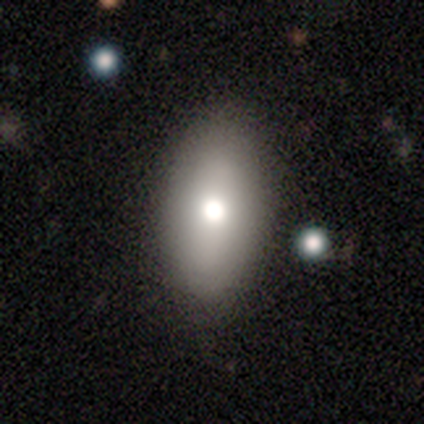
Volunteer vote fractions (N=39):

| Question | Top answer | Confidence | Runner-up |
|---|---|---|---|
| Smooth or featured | smooth | 77% | featured or disk (18%) |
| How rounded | in between | 87% | cigar-shaped (10%) |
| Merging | none | 81% | minor disturbance (14%) |